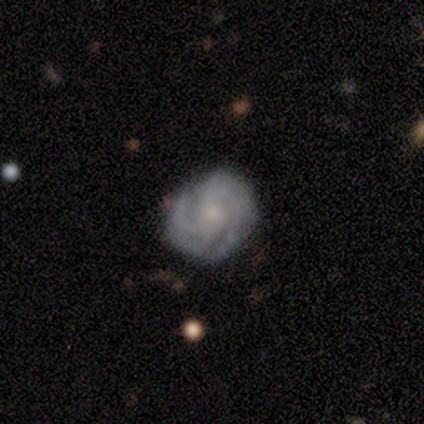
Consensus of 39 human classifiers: Morphology: type=featured or disk (85%); edge-on=no (97%); bar=no (78%); spiral arms=yes (100%); winding=tight (72%); arm count=4 (38%); bulge=small (69%); merging=none (75%).